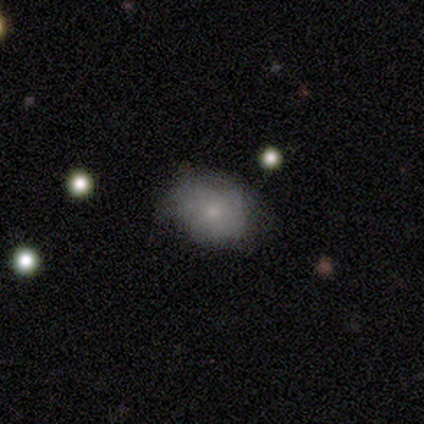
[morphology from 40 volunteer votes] Q: Smooth or featured?
A: smooth (78%); runner-up: featured or disk (15%)
Q: How rounded?
A: in between (61%); runner-up: round (39%)
Q: Merging?
A: none (46%); runner-up: minor disturbance (43%)